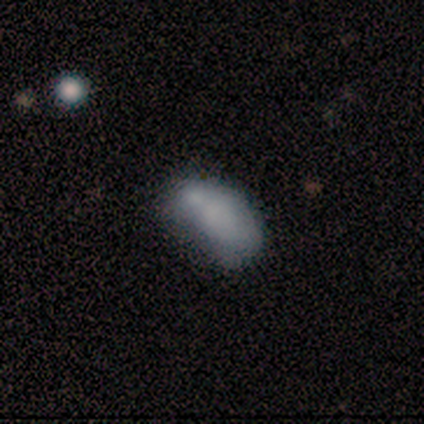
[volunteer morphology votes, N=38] Q: Smooth or featured?
A: smooth (71%); runner-up: featured or disk (21%)
Q: How rounded?
A: in between (89%); runner-up: cigar-shaped (11%)
Q: Merging?
A: none (43%); runner-up: minor disturbance (37%)